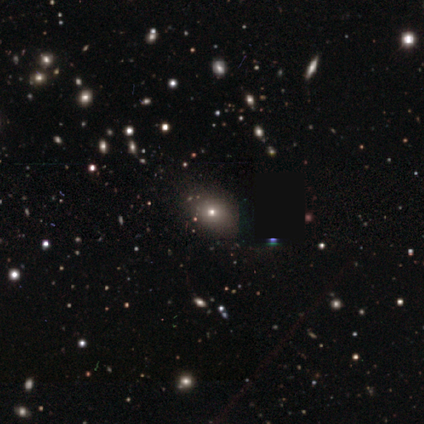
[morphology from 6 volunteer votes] smooth_or_featured: smooth (p=0.50) [alt: star or artifact p=0.33]
how_rounded: round (p=0.67) [alt: in between p=0.33]
merging: none (p=1.00)